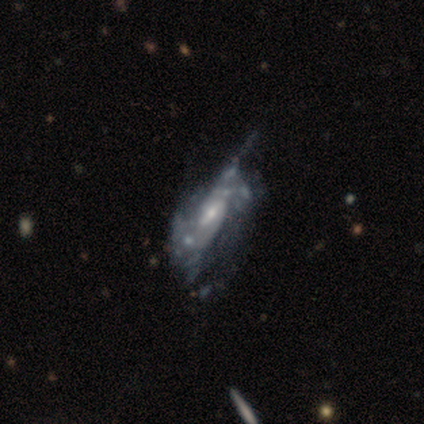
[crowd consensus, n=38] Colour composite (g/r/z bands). It shows a featured or disk galaxy (84%) with a weak bar (59%), loose (38%) spiral arms (83%) and a small central bulge (52%). Merging: minor disturbance (31%).